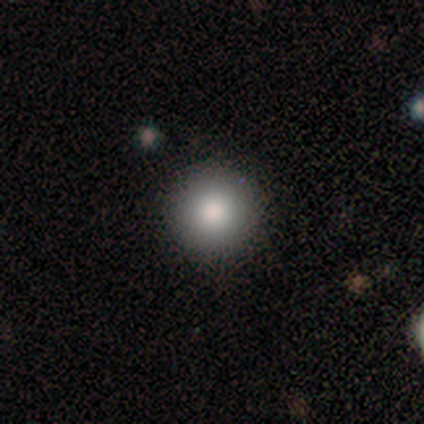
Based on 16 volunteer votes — Volunteers were most divided on "how rounded": round: 94%, in between: 6%, cigar-shaped: 0%. More confident: smooth or featured — smooth (100%); merging — none (94%).